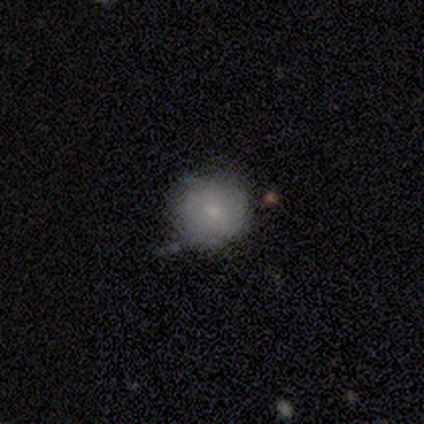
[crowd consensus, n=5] Overall: featured or disk (60%; smooth 40%). Edge-on disk: no (100%). Bar: no (100%). Spiral arms: no (67%; yes 33%). Bulge size: small (100%). Merging: none (80%).